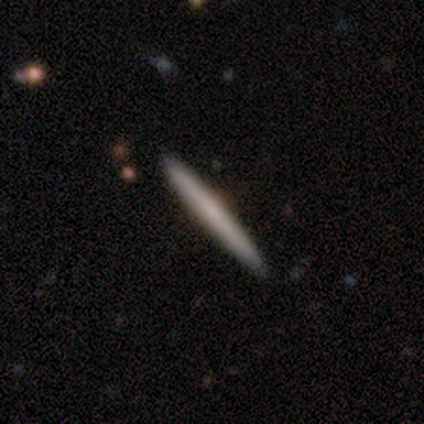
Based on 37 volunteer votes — Smooth or featured? 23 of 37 (62%) said smooth. How rounded? 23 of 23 (100%) said cigar-shaped. Merging? 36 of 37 (97%) said none.